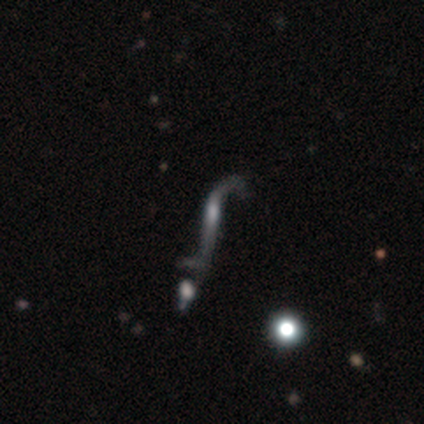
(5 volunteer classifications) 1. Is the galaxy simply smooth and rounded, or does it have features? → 80% featured or disk, 20% smooth, 0% star or artifact.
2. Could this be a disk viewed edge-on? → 75% no, 25% yes.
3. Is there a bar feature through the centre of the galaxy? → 67% strong, 33% weak, 0% no.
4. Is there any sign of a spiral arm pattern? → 100% yes, 0% no.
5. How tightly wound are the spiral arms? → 100% loose, 0% tight, 0% medium.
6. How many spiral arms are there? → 100% 2, 0% 1, 0% 3, 0% 4, 0% more than 4, 0% can't tell.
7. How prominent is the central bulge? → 100% moderate, 0% dominant, 0% large, 0% small, 0% none.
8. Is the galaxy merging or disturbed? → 40% merger, 20% none, 20% minor disturbance, 20% major disturbance.